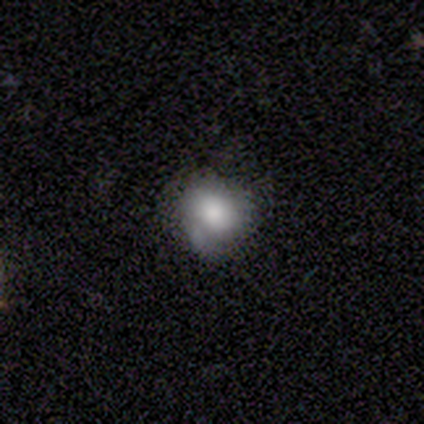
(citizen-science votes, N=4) A smooth galaxy with no disk features (75%) that is round (67%).

Vote fractions:
- Smooth or featured? smooth: 75% / featured or disk: 25% / star or artifact: 0%
- How rounded? round: 67% / in between: 33% / cigar-shaped: 0%
- Merging? major disturbance: 50% / none: 25% / minor disturbance: 25% / merger: 0%